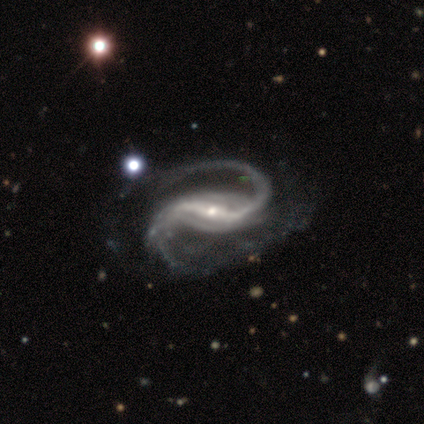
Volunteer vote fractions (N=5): featured or disk 100%, smooth 0%, star or artifact 0%. Down the decision tree: edge-on disk — no (100%); bar — strong (80%); spiral arms — yes (100%); spiral arm count — 2 (60%); spiral winding — medium (60%); bulge size — small (80%); merging — none (80%).